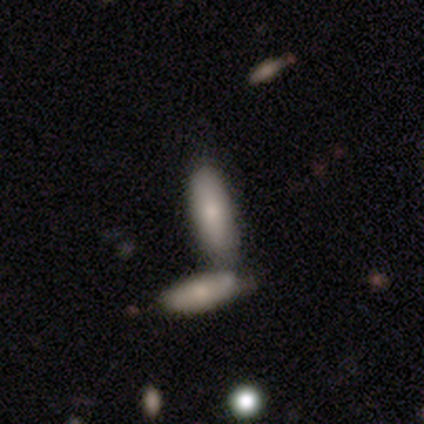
smooth-or-featured: smooth: 100% | featured or disk: 0% | star or artifact: 0%
  how-rounded: in between: 60% | cigar-shaped: 40% | round: 0%
  merging: minor disturbance: 40% (tied) | merger: 40% (tied) | none: 20% | major disturbance: 0%